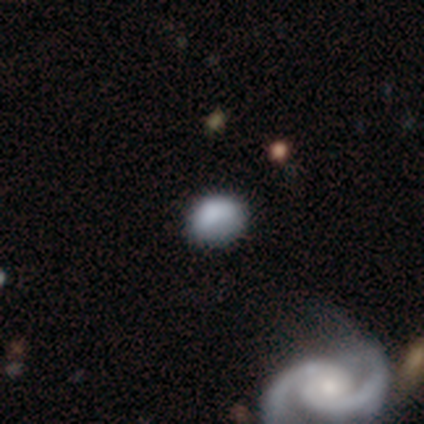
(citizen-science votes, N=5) A smooth galaxy with no disk features (80%) that is round (50%, tied with in between).

Vote fractions:
- Smooth or featured? smooth: 80% / star or artifact: 20% / featured or disk: 0%
- How rounded? round: 50% (tied) / in between: 50% (tied) / cigar-shaped: 0%
- Merging? none: 75% / minor disturbance: 25% / major disturbance: 0% / merger: 0%